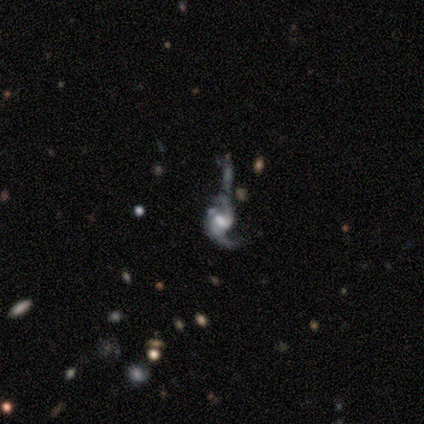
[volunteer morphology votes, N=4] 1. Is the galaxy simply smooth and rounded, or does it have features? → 75% featured or disk, 25% star or artifact, 0% smooth.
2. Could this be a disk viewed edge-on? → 100% no, 0% yes.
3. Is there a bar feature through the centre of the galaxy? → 33% strong (tied), 33% weak (tied), 33% no (tied).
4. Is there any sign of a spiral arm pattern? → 100% yes, 0% no.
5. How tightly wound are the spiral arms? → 100% loose, 0% tight, 0% medium.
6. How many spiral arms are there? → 100% 2, 0% 1, 0% 3, 0% 4, 0% more than 4, 0% can't tell.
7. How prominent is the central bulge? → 33% large (tied), 33% moderate (tied), 33% small (tied), 0% dominant, 0% none.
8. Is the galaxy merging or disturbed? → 67% none, 33% major disturbance, 0% minor disturbance, 0% merger.